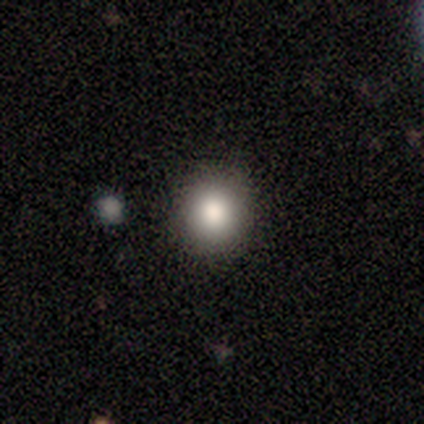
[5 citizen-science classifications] smooth_or_featured: smooth (p=0.80) [alt: featured or disk p=0.20]
how_rounded: round (p=0.75) [alt: in between p=0.25]
merging: none (p=0.80) [alt: minor disturbance p=0.20]